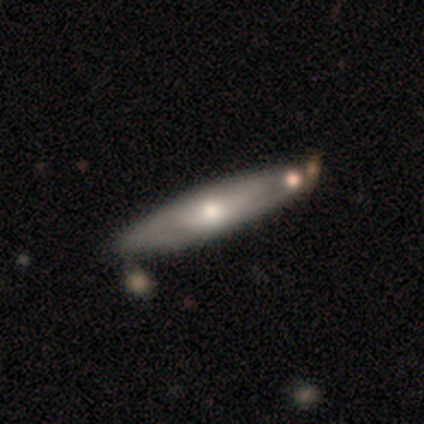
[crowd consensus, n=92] Smooth or featured: featured or disk — 51% (smooth — 39%)
Edge-on disk: yes — 55% (no — 45%)
Edge-on bulge: rounded — 88% (none — 12%)
Merging: none — 64% (minor disturbance — 27%)